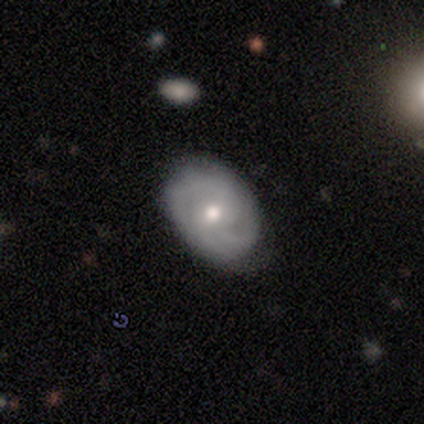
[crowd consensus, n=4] Smooth or featured: smooth — 50% (tied with featured or disk — 50%)
How rounded: round — 50% (tied with in between — 50%)
Merging: none — 100%